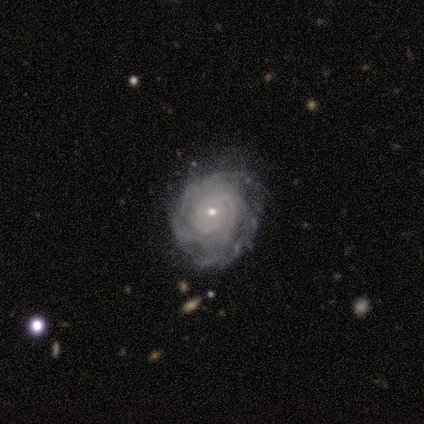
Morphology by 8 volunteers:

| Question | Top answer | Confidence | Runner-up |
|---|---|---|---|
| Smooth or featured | featured or disk | 100% | — |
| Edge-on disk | no | 100% | — |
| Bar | no | 75% | weak (25%) |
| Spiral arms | yes | 100% | — |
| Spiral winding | tight | 62% | medium (38%) |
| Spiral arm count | more than 4 | 38% | 2 (25%) |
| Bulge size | small | 88% | moderate (12%) |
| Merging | none | 75% | minor disturbance (25%) |